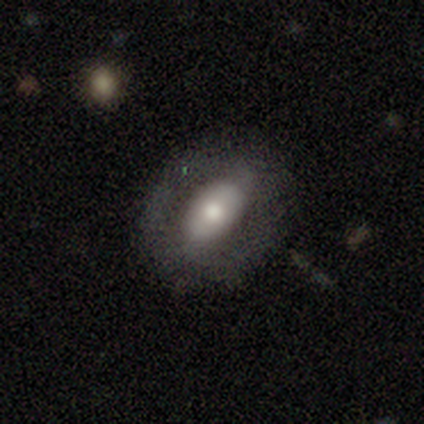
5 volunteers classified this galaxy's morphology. Smooth or featured?
  - featured or disk: 60% *
  - smooth: 40%
  - star or artifact: 0%
Edge-on disk?
  - no: 100% *
  - yes: 0%
Bar?
  - strong: 67% *
  - no: 33%
  - weak: 0%
Spiral arms?
  - no: 67% *
  - yes: 33%
Bulge size?
  - moderate: 67% *
  - large: 33%
  - dominant: 0%
  - small: 0%
  - none: 0%
Merging?
  - none: 80% *
  - major disturbance: 20%
  - minor disturbance: 0%
  - merger: 0%